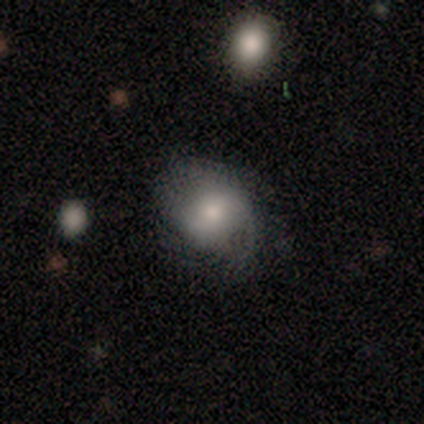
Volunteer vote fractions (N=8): A smooth galaxy with no disk features (50%, tied with featured or disk) that is round (50%, tied with in between).

Vote fractions:
- Smooth or featured? smooth: 50% (tied) / featured or disk: 50% (tied) / star or artifact: 0%
- How rounded? round: 50% (tied) / in between: 50% (tied) / cigar-shaped: 0%
- Merging? none: 88% / minor disturbance: 12% / major disturbance: 0% / merger: 0%